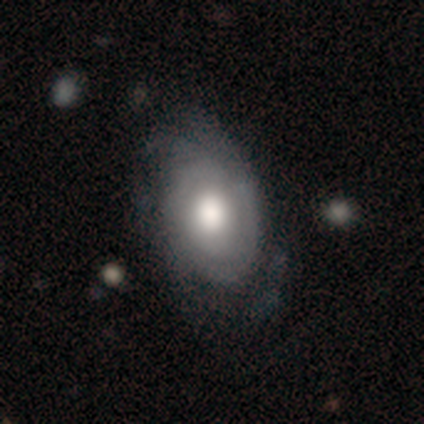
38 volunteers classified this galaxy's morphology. A featured or disk galaxy (61%) with no bar (91%), tight (55%) spiral arms (87%) and a moderate central bulge (52%).

Vote fractions:
- Smooth or featured? featured or disk: 61% / smooth: 39% / star or artifact: 0%
- Edge-on disk? no: 100% / yes: 0%
- Bar? no: 91% / weak: 9% / strong: 0%
- Spiral arms? yes: 87% / no: 13%
- Spiral winding? tight: 55% / medium: 25% / loose: 20%
- Spiral arm count? can't tell: 60% / 2: 20% / 3: 15% / 4: 5% / 1: 0% / more than 4: 0%
- Bulge size? moderate: 52% / large: 39% / dominant: 4% / small: 4% / none: 0%
- Merging? none: 37% / minor disturbance: 26% / major disturbance: 0% / merger: 0%